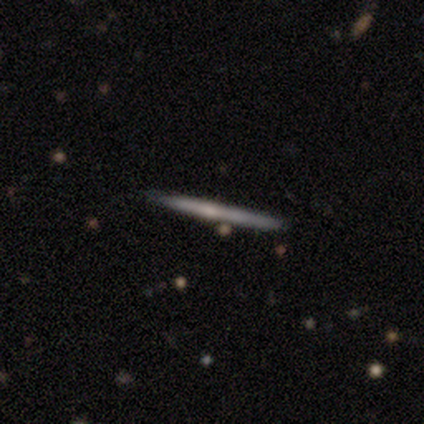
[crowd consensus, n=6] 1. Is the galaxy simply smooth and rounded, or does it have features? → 67% smooth, 33% featured or disk, 0% star or artifact.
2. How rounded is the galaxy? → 100% cigar-shaped, 0% round, 0% in between.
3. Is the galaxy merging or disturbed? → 83% none, 17% minor disturbance, 0% major disturbance, 0% merger.